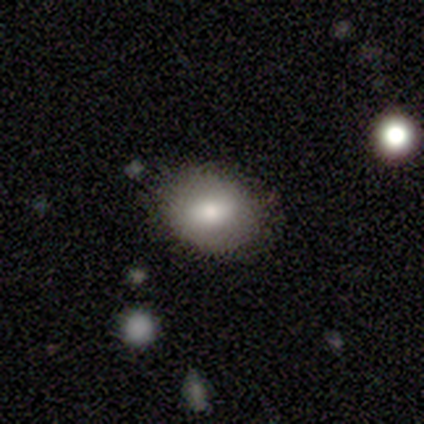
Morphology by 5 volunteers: This is clearly a smooth galaxy (80%). How rounded: likely in between (75%). Merging: clearly none (80%).